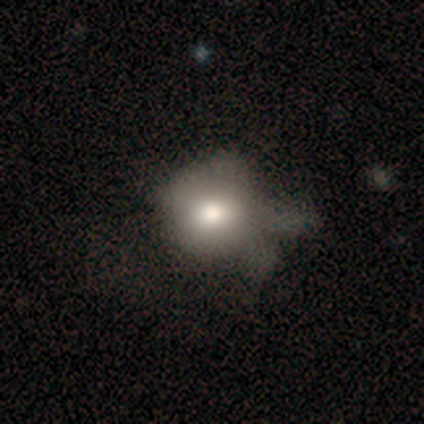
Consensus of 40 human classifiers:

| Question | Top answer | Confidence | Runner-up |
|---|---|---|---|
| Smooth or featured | smooth | 70% | featured or disk (28%) |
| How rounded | round | 75% | in between (25%) |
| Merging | major disturbance | 33% | minor disturbance (26%) |